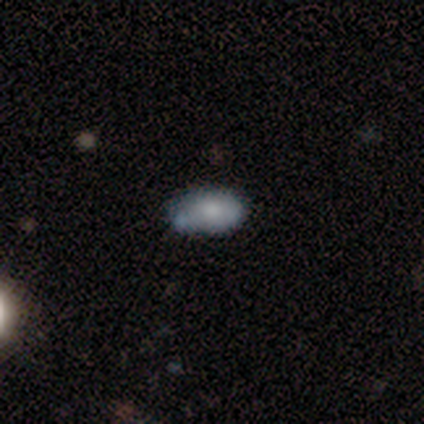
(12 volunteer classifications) smooth 58%, featured or disk 25%, star or artifact 17%. Down the decision tree: how rounded — in between (100%); merging — none (50%).